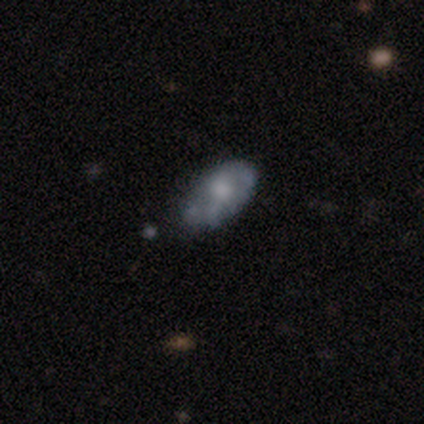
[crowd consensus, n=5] Morphology: type=smooth (60%); roundness=in between (100%); merging=minor disturbance (60%).